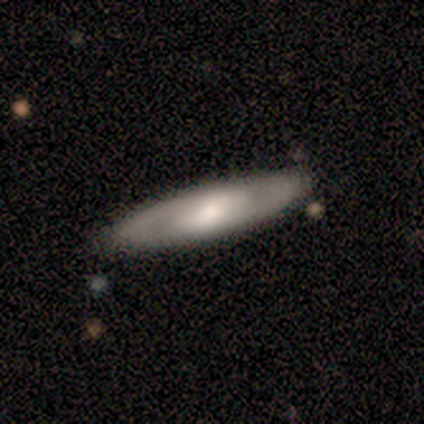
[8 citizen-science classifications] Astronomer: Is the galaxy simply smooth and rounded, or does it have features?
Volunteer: smooth — 50%, tied with featured or disk at 50%.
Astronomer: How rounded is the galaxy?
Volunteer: cigar-shaped — 75%.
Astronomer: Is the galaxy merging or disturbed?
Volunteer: none — 100%.